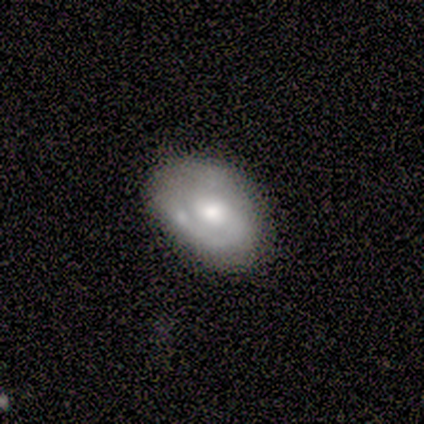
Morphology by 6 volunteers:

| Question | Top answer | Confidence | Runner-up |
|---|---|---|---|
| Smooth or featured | featured or disk | 67% | smooth (33%) |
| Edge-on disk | no | 75% | yes (25%) |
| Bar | no | 67% | strong (33%) |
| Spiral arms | yes | 100% | — |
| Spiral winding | tight | 100% | — |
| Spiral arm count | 1 | 33% | tied: 2 (33%), can't tell (33%) |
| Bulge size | moderate | 100% | — |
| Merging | none | 67% | minor disturbance (17%) |